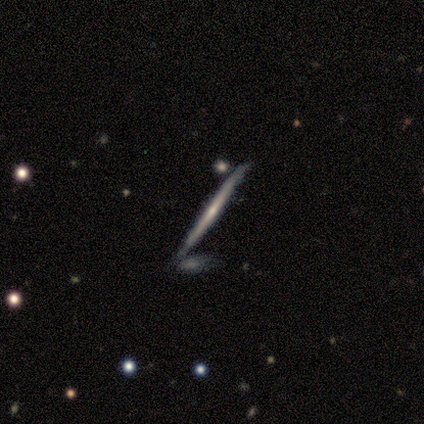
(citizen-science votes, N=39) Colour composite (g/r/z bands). It shows a featured or disk galaxy (82%) viewed edge-on (97%) with no central bulge (74%). Merging: none (82%).